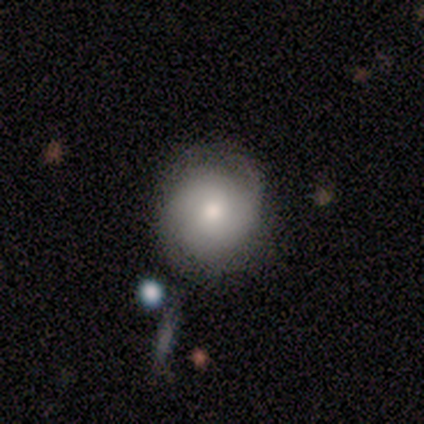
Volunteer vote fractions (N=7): Smooth or featured? smooth (71%)
How rounded? round (100%)
Merging? none (100%)